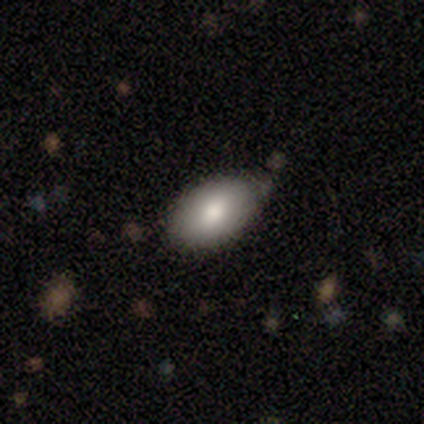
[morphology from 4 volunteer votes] A smooth galaxy with no disk features (75%) that is in between round and cigar-shaped (100%). Merging: none (50%, tied with minor disturbance).